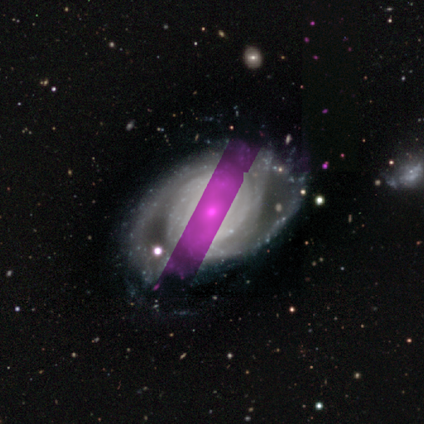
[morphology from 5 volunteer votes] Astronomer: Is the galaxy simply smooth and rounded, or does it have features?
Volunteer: featured or disk — 100%.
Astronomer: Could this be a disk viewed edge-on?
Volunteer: no — 100%.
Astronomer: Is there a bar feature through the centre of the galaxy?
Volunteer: no — 80%.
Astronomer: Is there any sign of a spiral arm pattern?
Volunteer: yes — 100%.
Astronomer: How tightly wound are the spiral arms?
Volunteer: tight — 100%.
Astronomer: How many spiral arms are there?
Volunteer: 2 — 80%.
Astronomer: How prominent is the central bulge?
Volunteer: moderate — 60% (runner-up: small, 40%).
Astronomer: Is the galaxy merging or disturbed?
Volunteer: none — 60% (runner-up: minor disturbance, 40%).